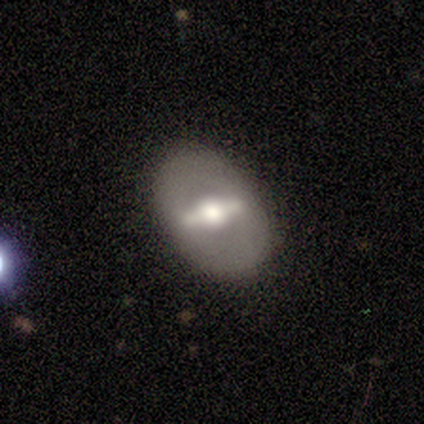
Morphology: type=featured or disk (86%); edge-on=no (83%); bar=strong (80%); spiral arms=no (100%); bulge=moderate (80%); merging=none (100%).